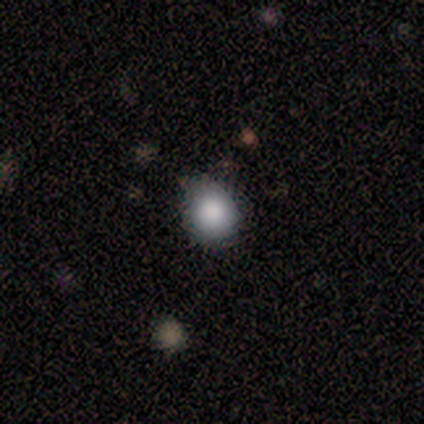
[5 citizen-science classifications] Smooth or featured? 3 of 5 (60%) said smooth. How rounded? 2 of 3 (67%) said round. Merging? 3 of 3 (100%) said none.